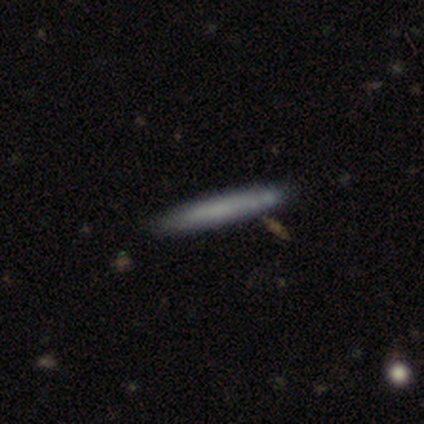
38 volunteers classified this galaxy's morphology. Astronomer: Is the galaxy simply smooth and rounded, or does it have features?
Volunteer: smooth — 84%.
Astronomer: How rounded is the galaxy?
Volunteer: cigar-shaped — 100%.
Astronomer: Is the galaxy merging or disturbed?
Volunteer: none — 92%.